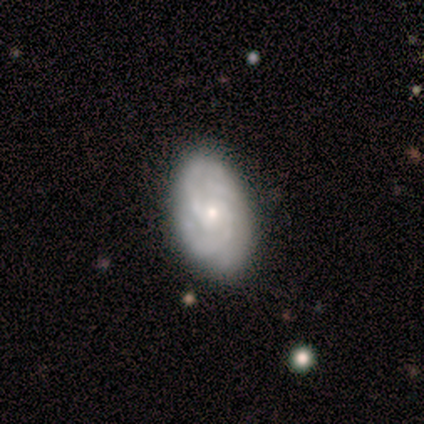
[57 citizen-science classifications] smooth_or_featured: featured or disk (p=0.82) [alt: smooth p=0.14]
disk_edge_on: no (p=0.98) [alt: yes p=0.02]
bar: no (p=0.89) [alt: weak p=0.11]
has_spiral_arms: yes (p=0.98) [alt: no p=0.02]
spiral_winding: tight (p=0.80) [alt: medium p=0.13]
spiral_arm_count: 3 (p=0.31) [alt: can't tell p=0.29]
bulge_size: small (p=0.65) [alt: moderate p=0.35]
merging: none (p=0.85) [alt: minor disturbance p=0.15]